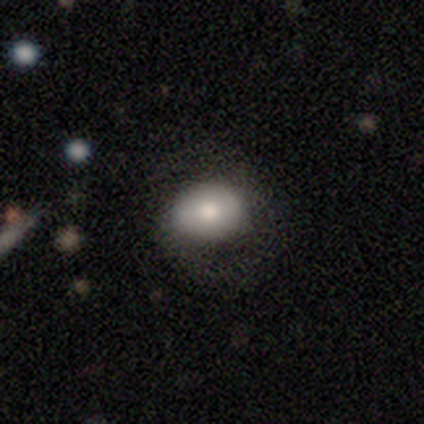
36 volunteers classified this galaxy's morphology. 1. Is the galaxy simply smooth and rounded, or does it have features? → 67% smooth, 28% featured or disk, 6% star or artifact.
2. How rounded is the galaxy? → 54% round, 46% in between, 0% cigar-shaped.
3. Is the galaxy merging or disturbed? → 68% none, 24% minor disturbance, 9% major disturbance, 0% merger.